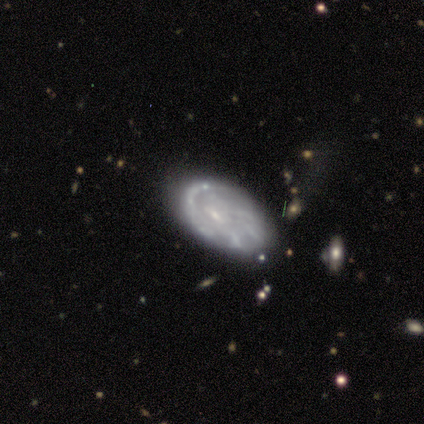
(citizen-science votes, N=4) smooth-or-featured: featured or disk: 100% | smooth: 0% | star or artifact: 0%
  disk-edge-on: no: 75% | yes: 25%
    bar: no: 67% | weak: 33% | strong: 0%
    has-spiral-arms: no: 67% | yes: 33%
    bulge-size: none: 67% | small: 33% | dominant: 0% | large: 0% | moderate: 0%
  merging: none: 75% | major disturbance: 25% | minor disturbance: 0% | merger: 0%